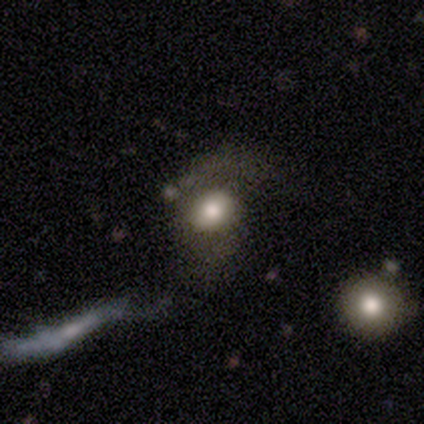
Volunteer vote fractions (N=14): Overall: smooth (43%; featured or disk 36%). How rounded: in between (83%). Merging: none (45%, tied with major disturbance).